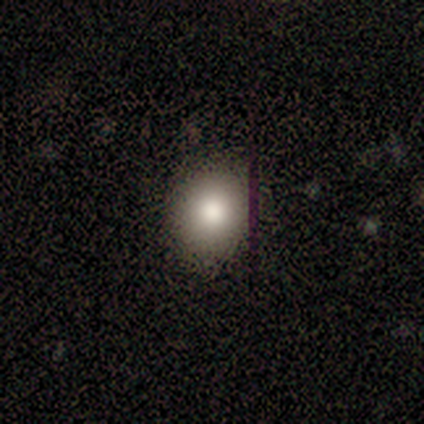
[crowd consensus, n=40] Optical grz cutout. It shows a smooth galaxy with no disk features (88%) that is round (71%). Merging: none (56%).